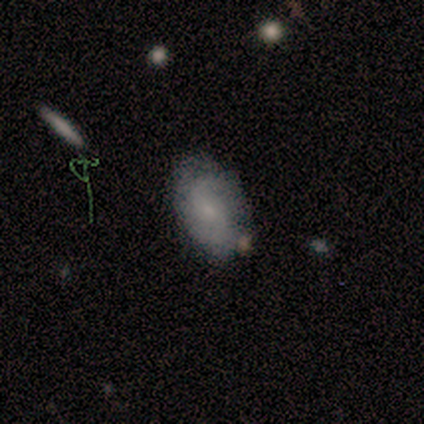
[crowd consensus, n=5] Volunteers were most divided on "merging" (2-way tie): none: 50%, minor disturbance: 50%, major disturbance: 0%, merger: 0%. More confident: how rounded — in between (100%); smooth or featured — smooth (60%).